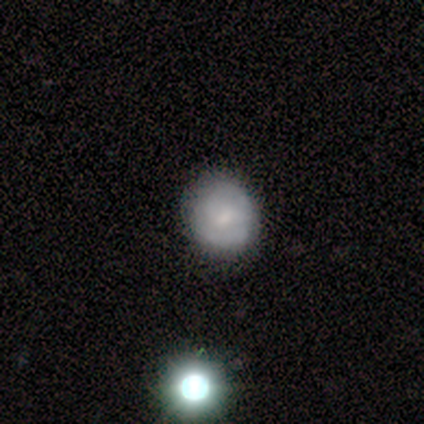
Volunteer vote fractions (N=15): A smooth galaxy with no disk features (73%) that is round (82%). Merging: none (71%).